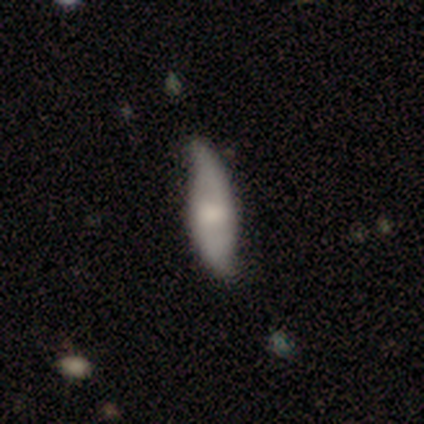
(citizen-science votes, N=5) A featured or disk galaxy (60%) with a weak bar (67%), 2 (100%) medium (50%, tied with loose) spiral arms (67%) and a moderate central bulge (67%).

Vote fractions:
- Smooth or featured? featured or disk: 60% / smooth: 40% / star or artifact: 0%
- Edge-on disk? no: 100% / yes: 0%
- Bar? weak: 67% / no: 33% / strong: 0%
- Spiral arms? yes: 67% / no: 33%
- Spiral winding? medium: 50% (tied) / loose: 50% (tied) / tight: 0%
- Spiral arm count? 2: 100% / 1: 0% / 3: 0% / 4: 0% / more than 4: 0% / can't tell: 0%
- Bulge size? moderate: 67% / large: 33% / dominant: 0% / small: 0% / none: 0%
- Merging? minor disturbance: 80% / none: 20% / major disturbance: 0% / merger: 0%